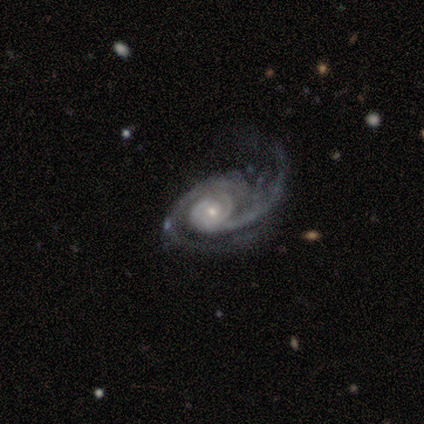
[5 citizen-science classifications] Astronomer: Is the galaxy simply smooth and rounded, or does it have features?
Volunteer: featured or disk — 100%.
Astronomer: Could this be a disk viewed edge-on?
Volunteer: no — 100%.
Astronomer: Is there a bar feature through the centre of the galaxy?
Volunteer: no — 80%.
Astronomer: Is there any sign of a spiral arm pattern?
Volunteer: yes — 100%.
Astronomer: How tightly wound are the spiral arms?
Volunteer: medium — 60%.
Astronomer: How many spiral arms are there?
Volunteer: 2 — 100%.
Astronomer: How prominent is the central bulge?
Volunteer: moderate — 60% (runner-up: small, 40%).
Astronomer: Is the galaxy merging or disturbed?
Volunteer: minor disturbance — 40%, tied with major disturbance at 40%.